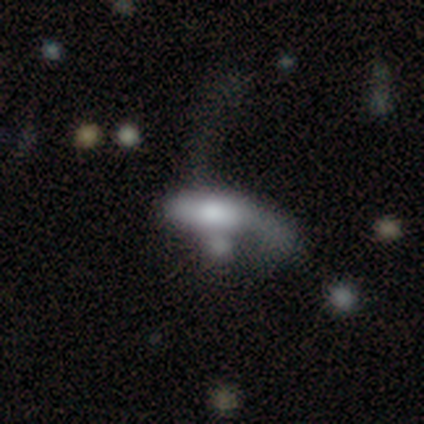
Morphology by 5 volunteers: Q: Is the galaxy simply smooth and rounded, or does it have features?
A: smooth — 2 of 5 (40%, tied with star or artifact).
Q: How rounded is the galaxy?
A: in between — 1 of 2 (50%, tied with cigar-shaped).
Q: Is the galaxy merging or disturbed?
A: minor disturbance — 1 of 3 (33%, tied with major disturbance and merger).